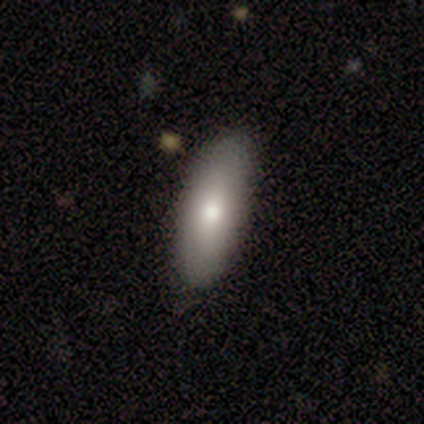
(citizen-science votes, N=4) Smooth or featured? 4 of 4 (100%) said smooth. How rounded? 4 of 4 (100%) said in between. Merging? 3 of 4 (75%) said none.